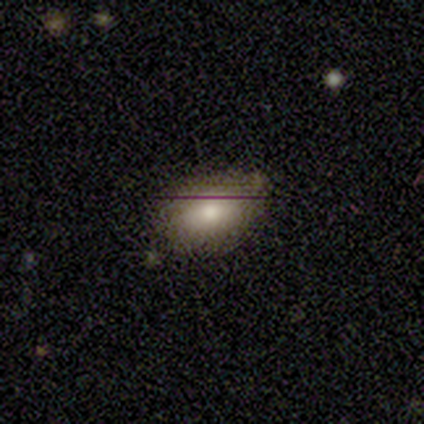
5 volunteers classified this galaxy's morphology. Smooth or featured? smooth (80%)
How rounded? in between (100%)
Merging? none (75%)